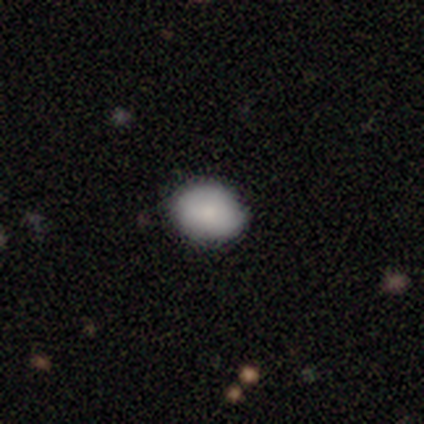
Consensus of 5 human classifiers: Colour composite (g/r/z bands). It shows a smooth galaxy with no disk features (100%) that is round (60%). Merging: none (80%).